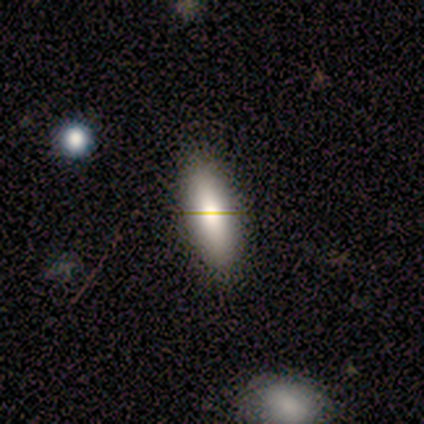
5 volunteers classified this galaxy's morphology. smooth-or-featured: smooth: 80% | star or artifact: 20% | featured or disk: 0%
  how-rounded: in between: 75% | cigar-shaped: 25% | round: 0%
  merging: none: 100% | minor disturbance: 0% | major disturbance: 0% | merger: 0%